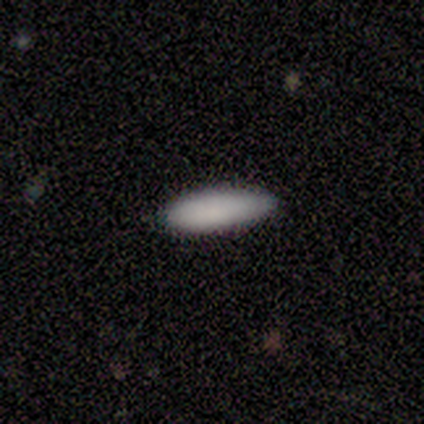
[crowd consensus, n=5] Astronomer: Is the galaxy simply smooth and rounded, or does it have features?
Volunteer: smooth — 100%.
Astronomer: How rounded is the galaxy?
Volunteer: in between — 60% (runner-up: cigar-shaped, 40%).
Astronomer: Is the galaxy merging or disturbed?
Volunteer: none — 60% (runner-up: minor disturbance, 40%).